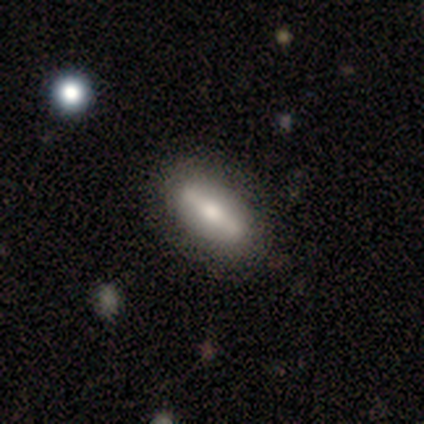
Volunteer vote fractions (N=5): Smooth or featured: featured or disk — 60% (smooth — 40%)
Edge-on disk: no — 100%
Bar: strong — 67% (weak — 33%)
Spiral arms: no — 67% (yes — 33%)
Bulge size: large — 67% (moderate — 33%)
Merging: none — 100%